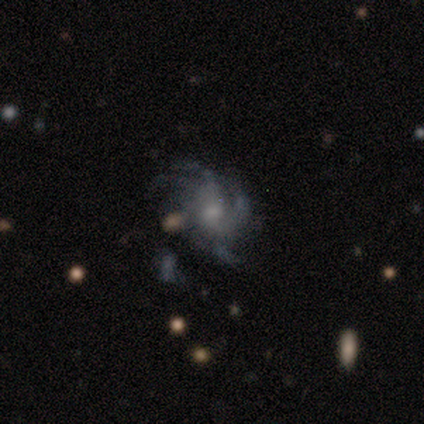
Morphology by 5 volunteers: Q: Smooth or featured?
A: featured or disk (80%); runner-up: smooth (20%)
Q: Edge-on disk?
A: no (100%)
Q: Bar?
A: no (75%); runner-up: weak (25%)
Q: Spiral arms?
A: yes (100%)
Q: Spiral winding?
A: medium (75%); runner-up: loose (25%)
Q: Spiral arm count?
A: can't tell (50%); runner-up: 4 (25%)
Q: Bulge size?
A: small (50%); runner-up: large (25%)
Q: Merging?
A: none (100%)